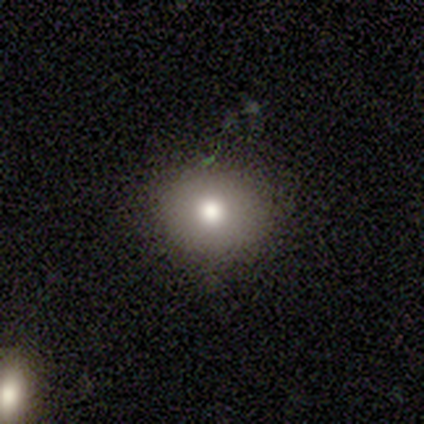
A smooth galaxy with no disk features (80%) that is round (100%). Merging: none (75%).